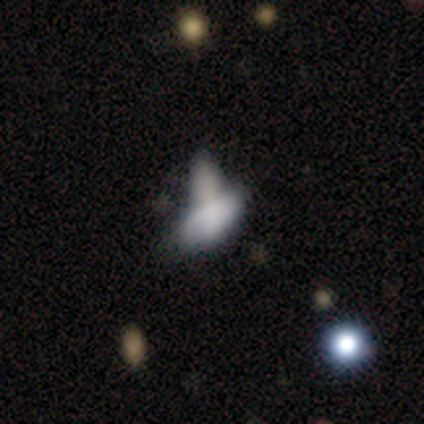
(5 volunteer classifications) Q: Smooth or featured?
A: smooth (80%); runner-up: star or artifact (20%)
Q: How rounded?
A: in between (100%)
Q: Merging?
A: merger (75%); runner-up: none (25%)